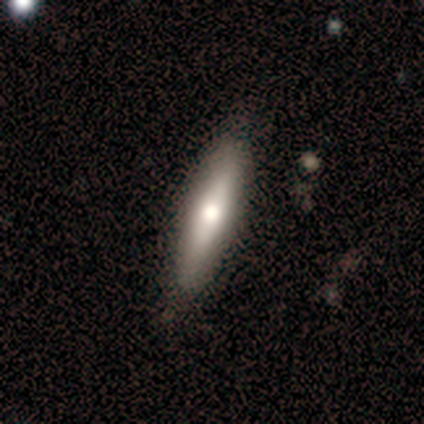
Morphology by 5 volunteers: Volunteers were most divided on "how rounded": cigar-shaped: 75%, in between: 25%, round: 0%. More confident: merging — none (100%); smooth or featured — smooth (80%).